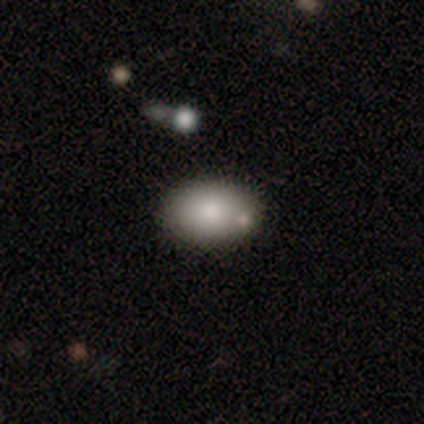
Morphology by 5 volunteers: A smooth galaxy with no disk features (80%) that is in between round and cigar-shaped (100%). Merging: none (80%).